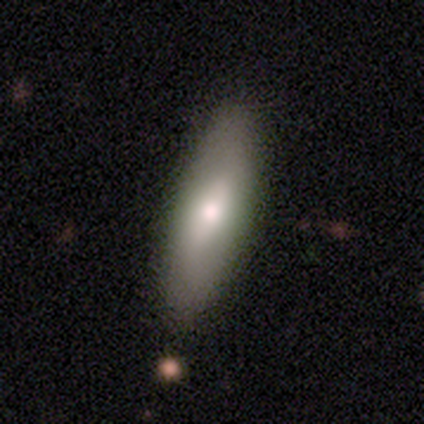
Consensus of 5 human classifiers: smooth_or_featured: smooth (p=0.60) [alt: featured or disk p=0.40]
how_rounded: cigar-shaped (p=0.67) [alt: in between p=0.33]
merging: none (p=0.60) [alt: minor disturbance p=0.20]